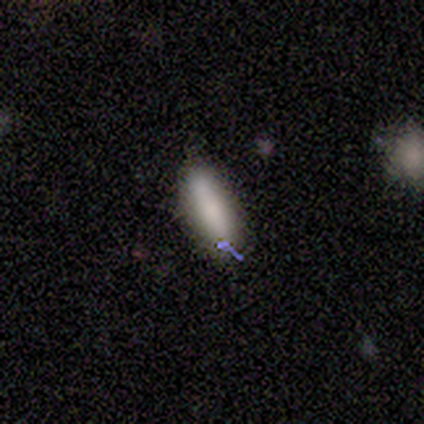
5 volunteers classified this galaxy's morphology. smooth-or-featured: smooth: 100% | featured or disk: 0% | star or artifact: 0%
  how-rounded: cigar-shaped: 100% | round: 0% | in between: 0%
  merging: none: 100% | minor disturbance: 0% | major disturbance: 0% | merger: 0%